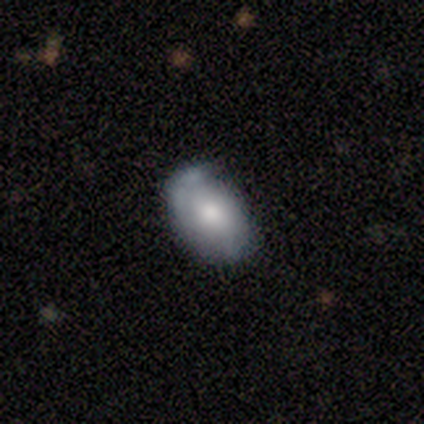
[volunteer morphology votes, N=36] Volunteers were most divided on "smooth or featured": smooth: 58%, featured or disk: 39%, star or artifact: 3%. More confident: how rounded — in between (90%); merging — none (57%).